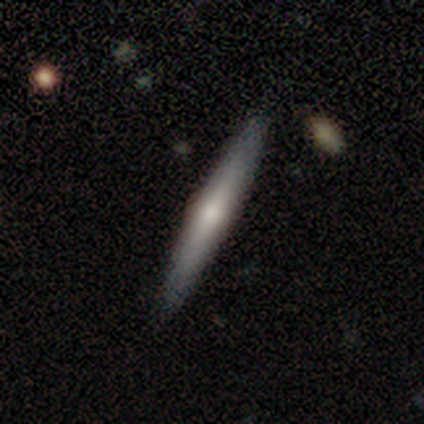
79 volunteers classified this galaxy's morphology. Smooth or featured?
  - featured or disk: 56% *
  - smooth: 43%
  - star or artifact: 1%
Edge-on disk?
  - yes: 98% *
  - no: 2%
Edge-on bulge?
  - rounded: 84% *
  - boxy: 9%
  - none: 7%
Merging?
  - none: 47% *
  - minor disturbance: 3%
  - merger: 3%
  - major disturbance: 0%